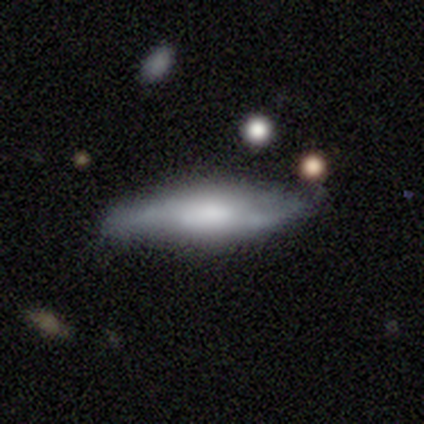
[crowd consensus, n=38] smooth-or-featured: featured or disk: 53% | smooth: 45% | star or artifact: 3%
  disk-edge-on: yes: 55% | no: 45%
    edge-on-bulge: rounded: 82% | boxy: 9% | none: 9%
  merging: none: 84% | major disturbance: 8% | minor disturbance: 5% | merger: 3%